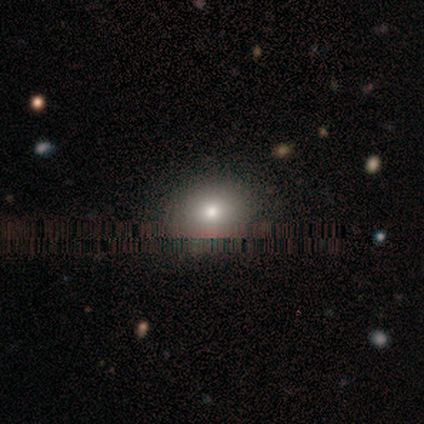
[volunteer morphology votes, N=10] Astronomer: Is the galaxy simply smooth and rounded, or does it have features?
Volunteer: smooth — 70%.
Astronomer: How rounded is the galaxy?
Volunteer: round — 71%.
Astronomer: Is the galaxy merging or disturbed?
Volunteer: none — 100%.